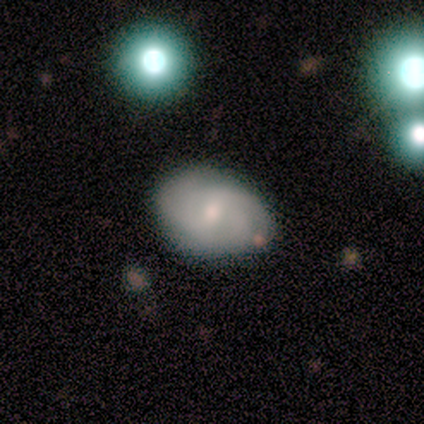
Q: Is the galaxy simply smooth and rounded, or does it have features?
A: featured or disk — 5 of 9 (56%).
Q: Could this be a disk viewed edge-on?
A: no — 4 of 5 (80%).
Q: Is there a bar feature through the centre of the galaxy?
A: weak — 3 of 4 (75%).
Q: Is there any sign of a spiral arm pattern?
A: yes — 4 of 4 (100%).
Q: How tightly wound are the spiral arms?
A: medium — 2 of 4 (50%).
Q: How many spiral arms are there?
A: can't tell — 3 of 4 (75%).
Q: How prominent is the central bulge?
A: moderate — 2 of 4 (50%, tied with small).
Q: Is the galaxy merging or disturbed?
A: none — 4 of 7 (57%).